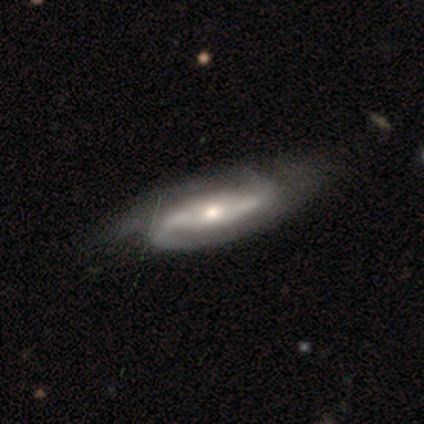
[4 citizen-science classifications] A featured or disk galaxy (100%) with a strong bar (75%), loose (67%) spiral arms (75%) and a small central bulge (75%).

Vote fractions:
- Smooth or featured? featured or disk: 100% / smooth: 0% / star or artifact: 0%
- Edge-on disk? no: 100% / yes: 0%
- Bar? strong: 75% / weak: 25% / no: 0%
- Spiral arms? yes: 75% / no: 25%
- Spiral winding? loose: 67% / medium: 33% / tight: 0%
- Spiral arm count? can't tell: 67% / 2: 33% / 1: 0% / 3: 0% / 4: 0% / more than 4: 0%
- Bulge size? small: 75% / large: 25% / dominant: 0% / moderate: 0% / none: 0%
- Merging? minor disturbance: 50% / none: 25% / major disturbance: 25% / merger: 0%